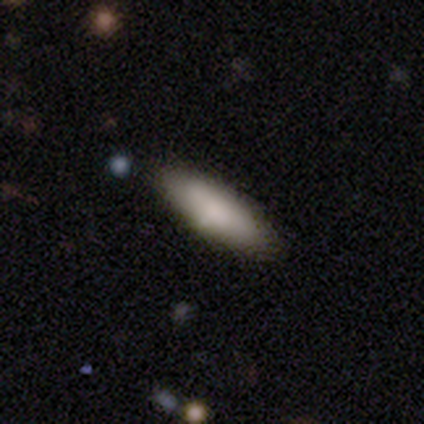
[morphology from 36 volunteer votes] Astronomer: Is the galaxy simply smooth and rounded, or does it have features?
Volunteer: smooth — 89%.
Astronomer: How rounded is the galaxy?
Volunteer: in between — 53% (runner-up: cigar-shaped, 44%).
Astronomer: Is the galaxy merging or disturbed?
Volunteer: none — 83%.